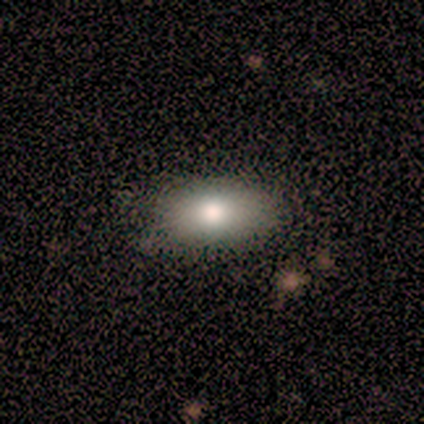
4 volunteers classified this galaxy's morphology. A smooth galaxy with no disk features (75%) that is in between round and cigar-shaped (100%).

Vote fractions:
- Smooth or featured? smooth: 75% / star or artifact: 25% / featured or disk: 0%
- How rounded? in between: 100% / round: 0% / cigar-shaped: 0%
- Merging? none: 67% / minor disturbance: 33% / major disturbance: 0% / merger: 0%